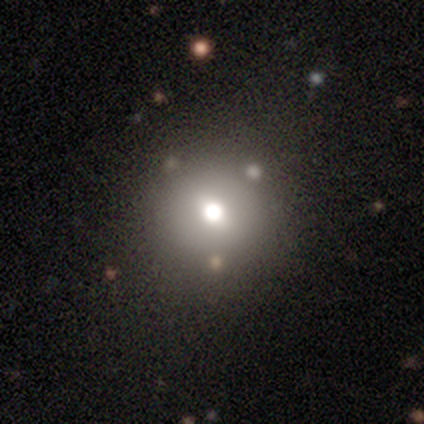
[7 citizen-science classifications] Smooth or featured? 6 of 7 (86%) said smooth. How rounded? 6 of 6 (100%) said round. Merging? 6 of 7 (86%) said none.